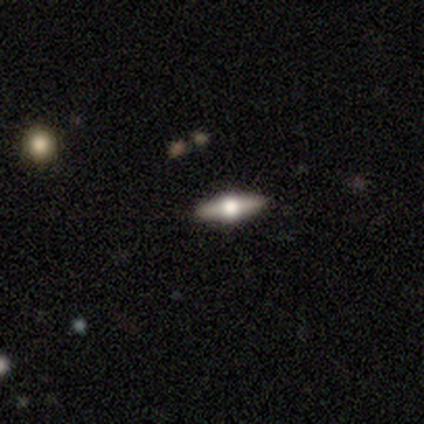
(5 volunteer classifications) smooth_or_featured: featured or disk (p=0.60) [alt: smooth p=0.40]
disk_edge_on: yes (p=1.00)
edge_on_bulge: rounded (p=1.00)
merging: none (p=0.80) [alt: minor disturbance p=0.20]